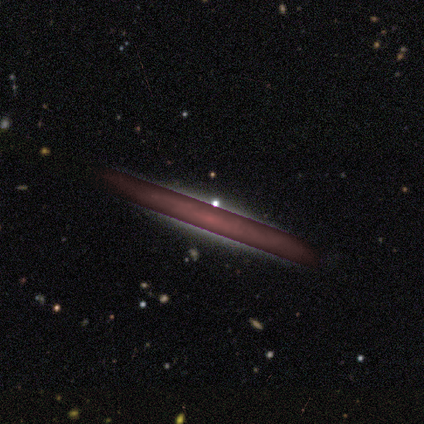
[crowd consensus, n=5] Volunteers were most divided on "smooth or featured": star or artifact: 80%, smooth: 20%, featured or disk: 0%.